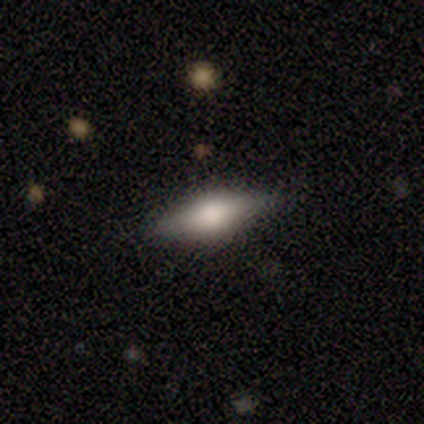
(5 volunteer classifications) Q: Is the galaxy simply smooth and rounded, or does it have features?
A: featured or disk — 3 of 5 (60%).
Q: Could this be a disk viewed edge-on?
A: yes — 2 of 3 (67%).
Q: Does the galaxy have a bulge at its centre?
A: boxy — 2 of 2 (100%).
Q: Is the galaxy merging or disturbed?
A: none — 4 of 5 (80%).